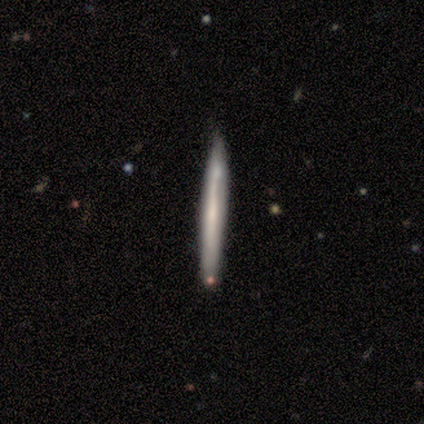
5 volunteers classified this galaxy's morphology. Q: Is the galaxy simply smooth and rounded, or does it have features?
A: featured or disk — 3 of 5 (60%).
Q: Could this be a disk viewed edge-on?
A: yes — 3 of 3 (100%).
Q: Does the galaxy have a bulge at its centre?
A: none — 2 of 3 (67%).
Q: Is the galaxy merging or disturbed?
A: none — 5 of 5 (100%).